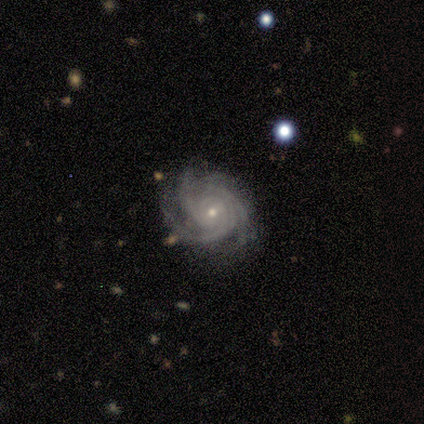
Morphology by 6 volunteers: smooth_or_featured: featured or disk (p=1.00)
disk_edge_on: no (p=1.00)
bar: weak (p=0.50) [tied with: no p=0.50]
has_spiral_arms: yes (p=1.00)
spiral_winding: tight (p=0.83) [alt: medium p=0.17]
spiral_arm_count: 3 (p=0.67) [alt: 4 p=0.33]
bulge_size: small (p=0.83) [alt: moderate p=0.17]
merging: none (p=0.83) [alt: minor disturbance p=0.17]